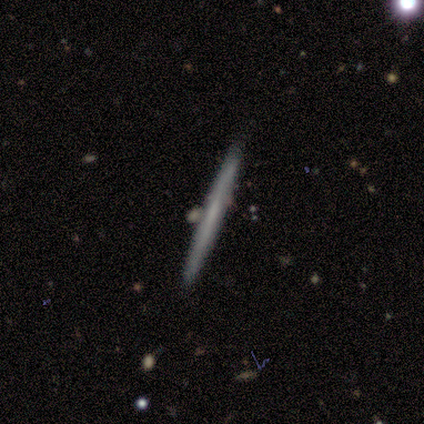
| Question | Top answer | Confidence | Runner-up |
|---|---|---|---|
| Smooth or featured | smooth | 60% | featured or disk (40%) |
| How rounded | cigar-shaped | 100% | — |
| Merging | none | 80% | merger (20%) |